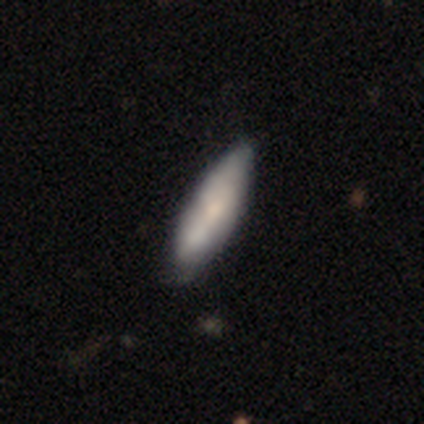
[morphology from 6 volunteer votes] Volunteers were most divided on "merging": minor disturbance: 60%, none: 40%, major disturbance: 0%, merger: 0%. More confident: how rounded — in between (75%); smooth or featured — smooth (67%).